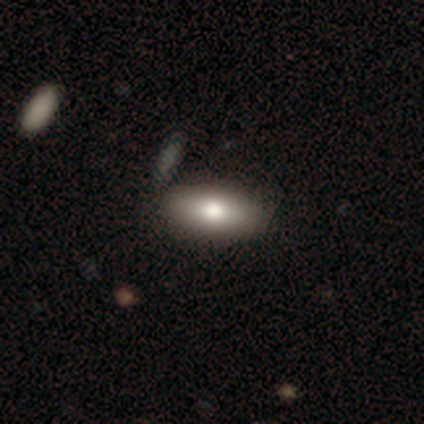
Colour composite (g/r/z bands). It shows a smooth galaxy with no disk features (80%) that is in between round and cigar-shaped (84%). Merging: none (62%).